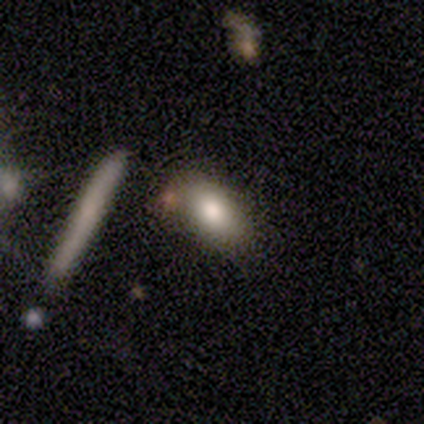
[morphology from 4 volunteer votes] smooth 75%, star or artifact 25%, featured or disk 0%. Down the decision tree: how rounded — in between (100%); merging — none (100%).